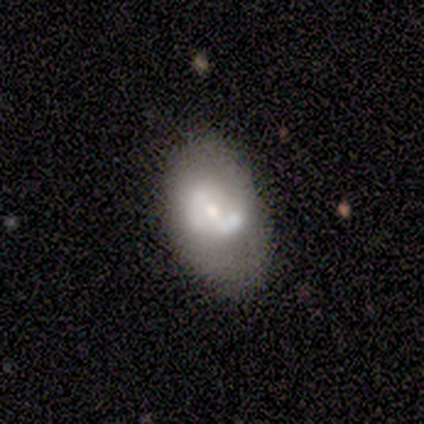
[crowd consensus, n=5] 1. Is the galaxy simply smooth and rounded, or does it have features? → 60% smooth, 40% featured or disk, 0% star or artifact.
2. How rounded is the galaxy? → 100% in between, 0% round, 0% cigar-shaped.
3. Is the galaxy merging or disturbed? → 60% none, 40% minor disturbance, 0% major disturbance, 0% merger.